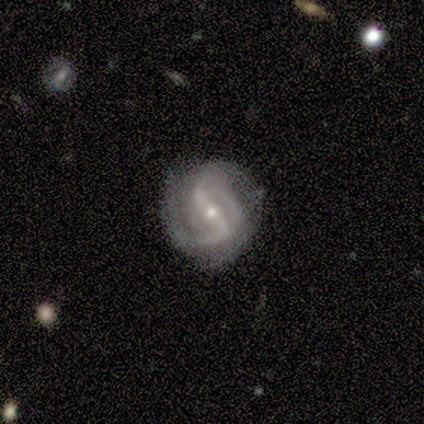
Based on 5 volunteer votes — A featured or disk galaxy (100%) with a strong bar (100%), 2 (75%) loose (50%) spiral arms (80%) and a moderate central bulge (60%).

Vote fractions:
- Smooth or featured? featured or disk: 100% / smooth: 0% / star or artifact: 0%
- Edge-on disk? no: 100% / yes: 0%
- Bar? strong: 100% / weak: 0% / no: 0%
- Spiral arms? yes: 80% / no: 20%
- Spiral winding? loose: 50% / tight: 25% / medium: 25%
- Spiral arm count? 2: 75% / 1: 25% / 3: 0% / 4: 0% / more than 4: 0% / can't tell: 0%
- Bulge size? moderate: 60% / small: 40% / dominant: 0% / large: 0% / none: 0%
- Merging? none: 80% / minor disturbance: 20% / major disturbance: 0% / merger: 0%